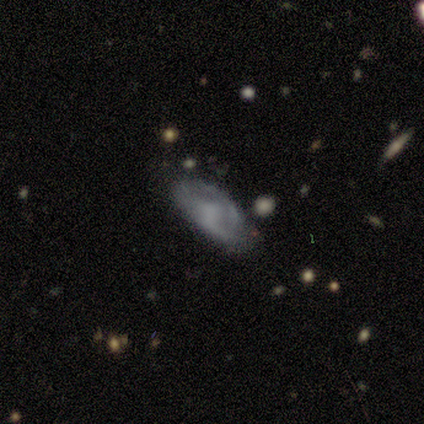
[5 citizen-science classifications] Q: Smooth or featured?
A: smooth (40%); tied with: featured or disk (40%)
Q: How rounded?
A: in between (100%)
Q: Merging?
A: minor disturbance (75%); runner-up: major disturbance (25%)